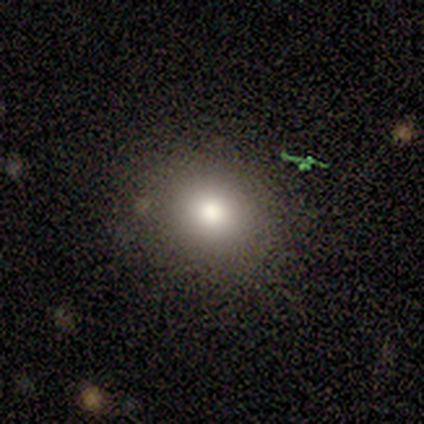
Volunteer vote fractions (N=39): Smooth or featured? smooth (74%)
How rounded? round (79%)
Merging? none (89%)